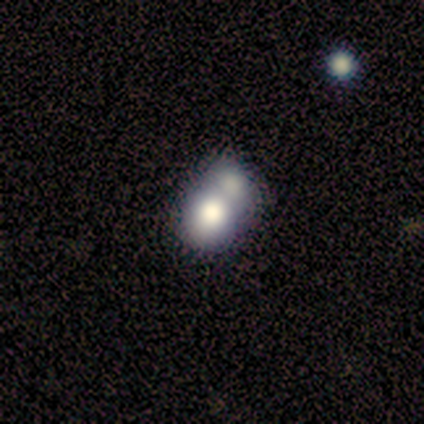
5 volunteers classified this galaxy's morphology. smooth 80%, featured or disk 20%, star or artifact 0%. Down the decision tree: how rounded — round (50%); merging — merger (60%).